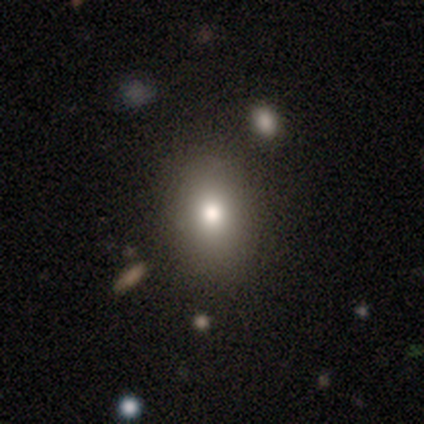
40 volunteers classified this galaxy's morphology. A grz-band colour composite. It shows a smooth galaxy with no disk features (78%) that is in between round and cigar-shaped (61%). Merging: none (88%).